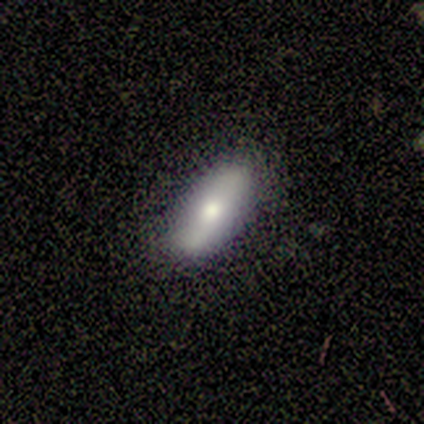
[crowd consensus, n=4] Smooth or featured? 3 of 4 (75%) said smooth. How rounded? 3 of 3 (100%) said in between. Merging? 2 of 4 (50%, tied with minor disturbance) said none.